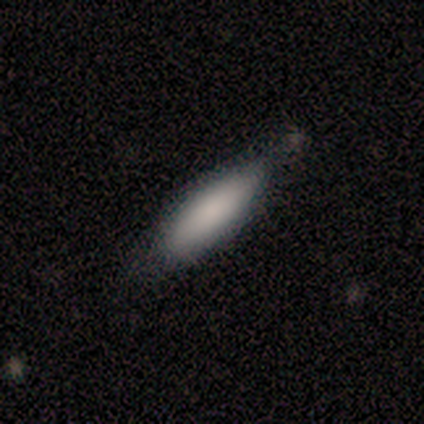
A smooth galaxy with no disk features (80%) that is in between round and cigar-shaped (50%, tied with cigar-shaped). Merging: none (40%, tied with minor disturbance).